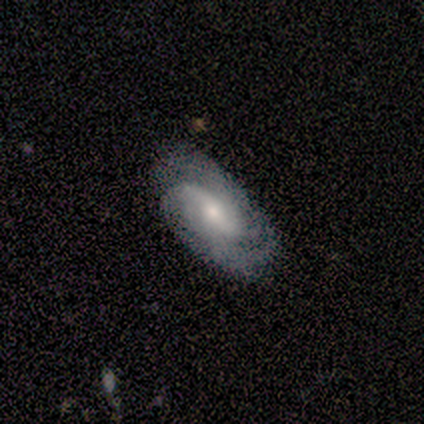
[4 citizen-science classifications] Smooth or featured: featured or disk — 50% (smooth — 25%)
Edge-on disk: no — 100%
Bar: strong — 50% (tied with weak — 50%)
Spiral arms: yes — 50% (tied with no — 50%)
Spiral winding: medium — 100%
Spiral arm count: 4 — 100%
Bulge size: moderate — 50% (tied with small — 50%)
Merging: none — 100%